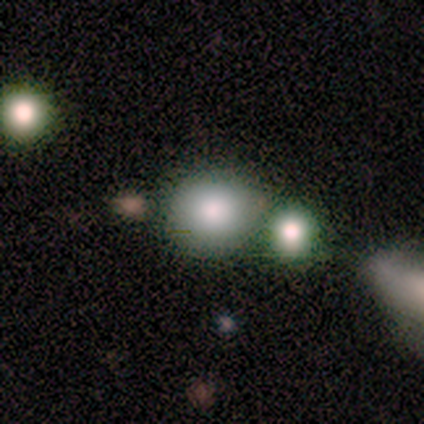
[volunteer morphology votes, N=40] smooth 68%, star or artifact 18%, featured or disk 15%. Down the decision tree: how rounded — round (96%); merging — none (55%).